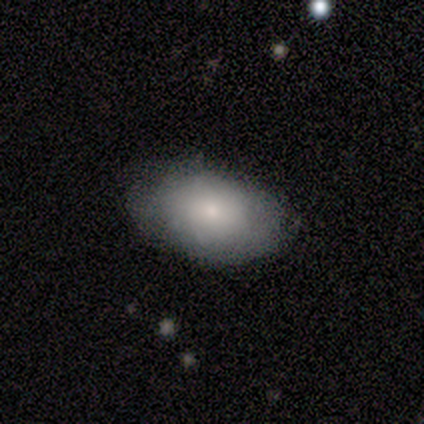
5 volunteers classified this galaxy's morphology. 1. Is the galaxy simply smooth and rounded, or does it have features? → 100% smooth, 0% featured or disk, 0% star or artifact.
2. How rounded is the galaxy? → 80% in between, 20% round, 0% cigar-shaped.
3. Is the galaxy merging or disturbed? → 100% none, 0% minor disturbance, 0% major disturbance, 0% merger.